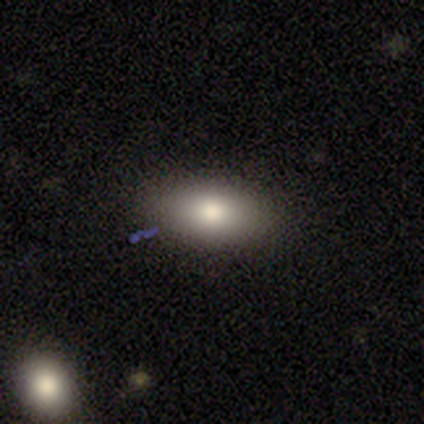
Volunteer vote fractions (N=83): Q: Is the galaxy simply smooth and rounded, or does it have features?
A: smooth — 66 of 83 (80%).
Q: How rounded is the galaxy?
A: in between — 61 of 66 (92%).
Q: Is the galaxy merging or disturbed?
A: none — 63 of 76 (83%).